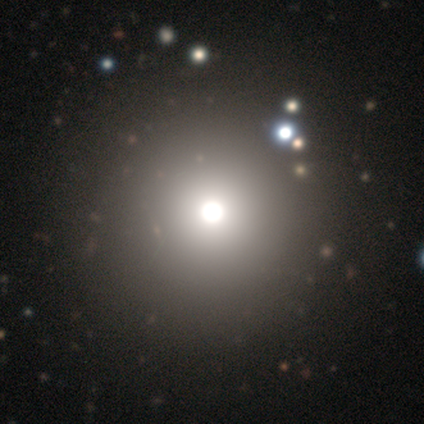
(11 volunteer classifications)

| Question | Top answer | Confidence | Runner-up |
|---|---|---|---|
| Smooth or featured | star or artifact | 45% | smooth (27%) |